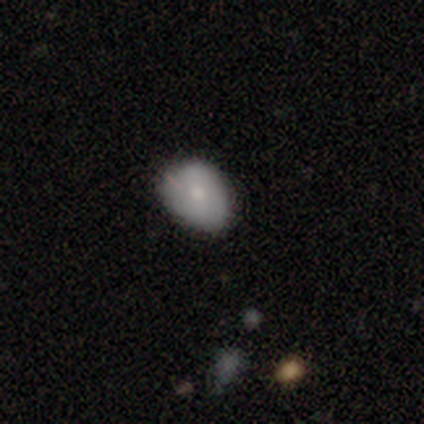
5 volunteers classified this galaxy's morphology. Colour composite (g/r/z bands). It shows a smooth galaxy with no disk features (100%) that is in between round and cigar-shaped (100%). Merging: none (60%).